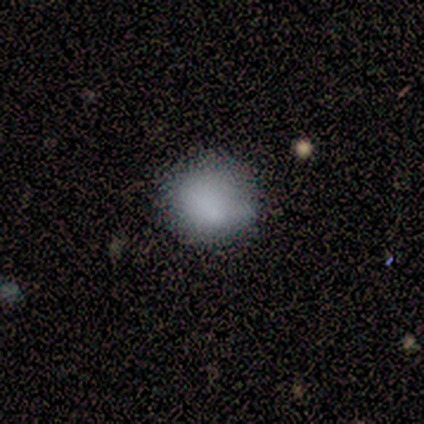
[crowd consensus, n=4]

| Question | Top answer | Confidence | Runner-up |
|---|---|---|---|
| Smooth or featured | smooth | 100% | — |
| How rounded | round | 100% | — |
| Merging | none | 75% | minor disturbance (25%) |